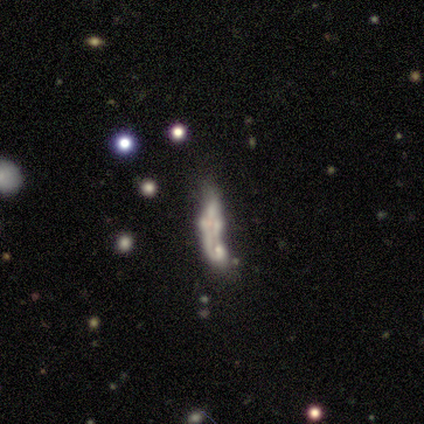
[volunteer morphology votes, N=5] type=smooth (60%); roundness=cigar-shaped (100%); merging=merger (75%).